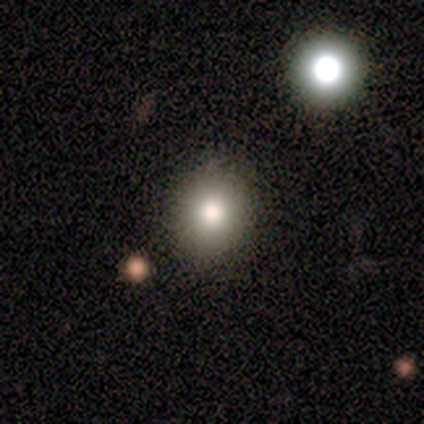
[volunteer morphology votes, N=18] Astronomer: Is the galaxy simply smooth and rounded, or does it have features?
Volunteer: smooth — 78%.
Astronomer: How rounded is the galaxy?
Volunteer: round — 64%.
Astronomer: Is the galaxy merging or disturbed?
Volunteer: none — 100%.